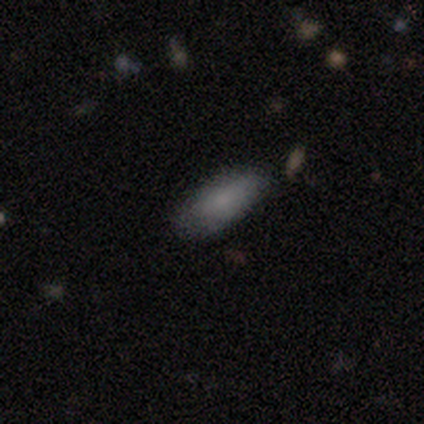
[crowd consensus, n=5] Smooth or featured? 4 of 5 (80%) said smooth. How rounded? 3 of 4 (75%) said in between. Merging? 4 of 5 (80%) said none.